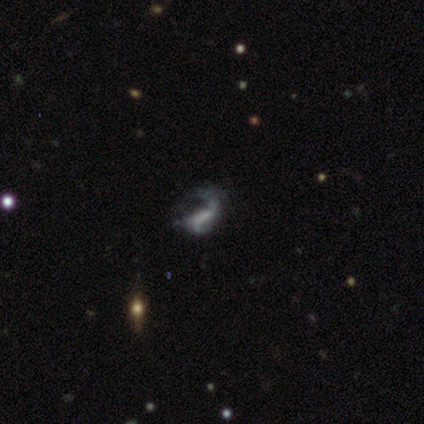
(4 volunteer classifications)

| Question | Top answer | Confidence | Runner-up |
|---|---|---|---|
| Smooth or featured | featured or disk | 75% | star or artifact (25%) |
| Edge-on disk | no | 100% | — |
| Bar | no | 100% | — |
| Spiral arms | yes | 67% | no (33%) |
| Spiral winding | medium | 100% | — |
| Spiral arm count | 1 | 100% | — |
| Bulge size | none | 100% | — |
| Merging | none | 33% | tied: minor disturbance (33%), major disturbance (33%) |